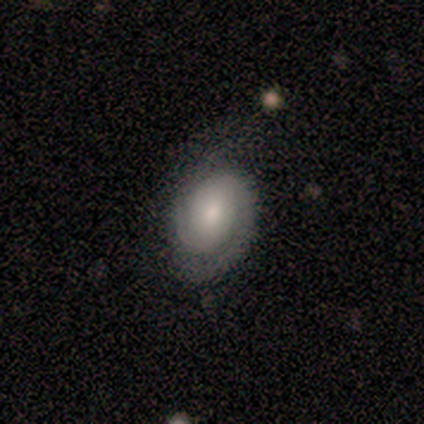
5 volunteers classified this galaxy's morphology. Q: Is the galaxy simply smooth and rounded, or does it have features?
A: featured or disk — 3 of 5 (60%).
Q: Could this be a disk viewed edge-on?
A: no — 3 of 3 (100%).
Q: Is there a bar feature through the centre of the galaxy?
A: no — 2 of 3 (67%).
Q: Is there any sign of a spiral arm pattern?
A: yes — 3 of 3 (100%).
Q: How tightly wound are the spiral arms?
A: tight — 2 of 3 (67%).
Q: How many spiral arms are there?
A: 2 — 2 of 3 (67%).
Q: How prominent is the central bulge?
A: moderate — 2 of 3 (67%).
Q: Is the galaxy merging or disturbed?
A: minor disturbance — 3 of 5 (60%).